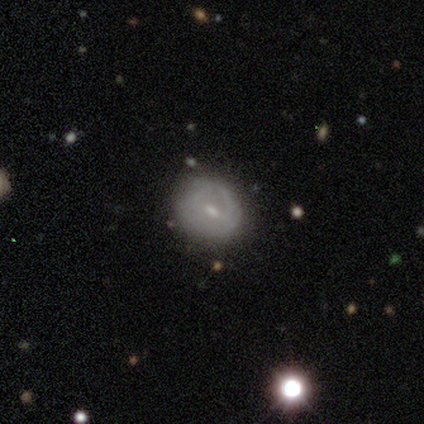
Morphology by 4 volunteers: Smooth or featured? smooth (75%)
How rounded? round (67%)
Merging? none (50%, tied with minor disturbance)